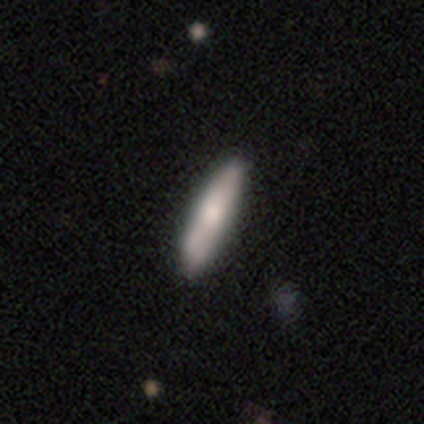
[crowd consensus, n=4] Smooth or featured? smooth (100%)
How rounded? cigar-shaped (100%)
Merging? none (75%)